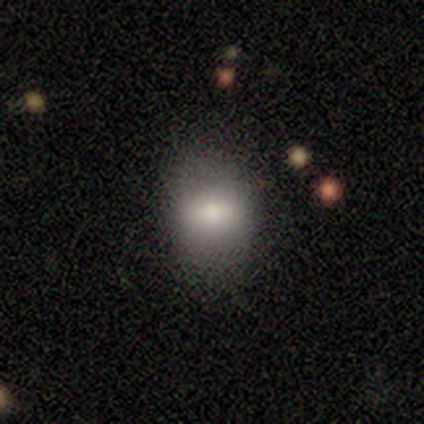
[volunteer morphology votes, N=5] This is clearly a smooth galaxy (80%). How rounded: possibly round (50%, tied with in between). Merging: possibly none (50%, tied with minor disturbance).